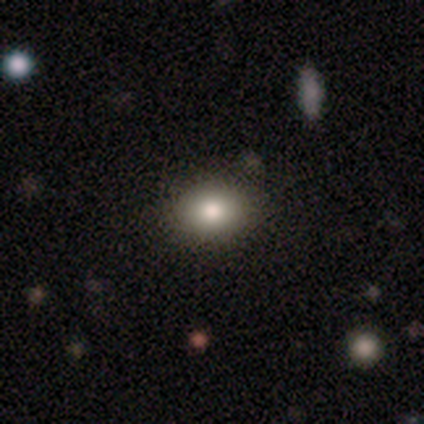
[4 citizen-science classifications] Smooth or featured?
  - smooth: 75% *
  - star or artifact: 25%
  - featured or disk: 0%
How rounded?
  - round: 67% *
  - in between: 33%
  - cigar-shaped: 0%
Merging?
  - none: 67% *
  - minor disturbance: 33%
  - major disturbance: 0%
  - merger: 0%